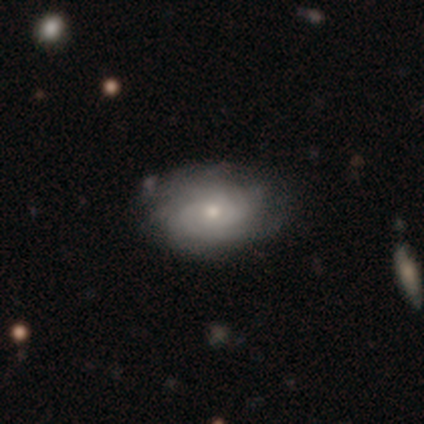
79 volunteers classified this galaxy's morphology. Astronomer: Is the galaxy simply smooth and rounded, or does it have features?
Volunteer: featured or disk — 67%.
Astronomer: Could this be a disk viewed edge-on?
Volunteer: no — 100%.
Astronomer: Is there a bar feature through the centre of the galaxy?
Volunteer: no — 85%.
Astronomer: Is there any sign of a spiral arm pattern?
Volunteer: yes — 89%.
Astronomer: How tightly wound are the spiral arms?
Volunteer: tight — 66%.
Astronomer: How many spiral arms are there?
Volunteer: can't tell — 53%.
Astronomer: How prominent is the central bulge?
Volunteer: moderate — 51% (runner-up: small, 42%).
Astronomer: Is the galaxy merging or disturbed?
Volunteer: none — 41%.